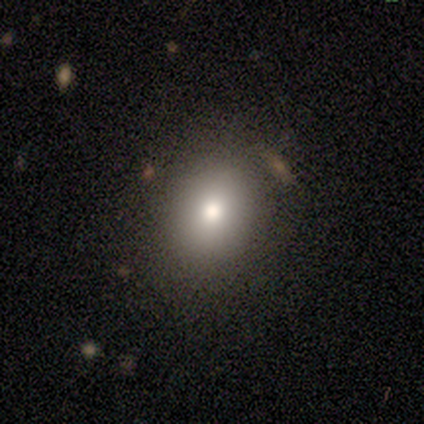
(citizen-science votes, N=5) smooth_or_featured: smooth (p=0.80) [alt: star or artifact p=0.20]
how_rounded: round (p=0.75) [alt: in between p=0.25]
merging: none (p=0.75) [alt: minor disturbance p=0.25]